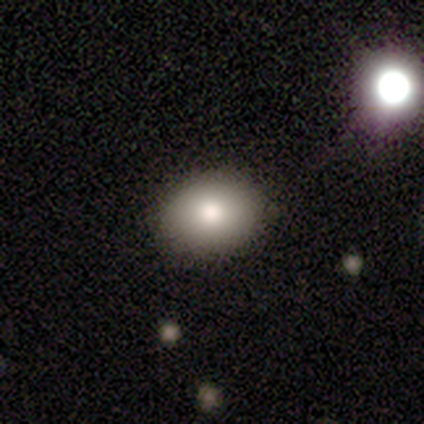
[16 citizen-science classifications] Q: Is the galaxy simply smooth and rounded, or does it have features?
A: smooth — 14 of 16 (88%).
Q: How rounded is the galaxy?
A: in between — 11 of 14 (79%).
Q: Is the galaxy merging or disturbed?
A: none — 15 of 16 (94%).